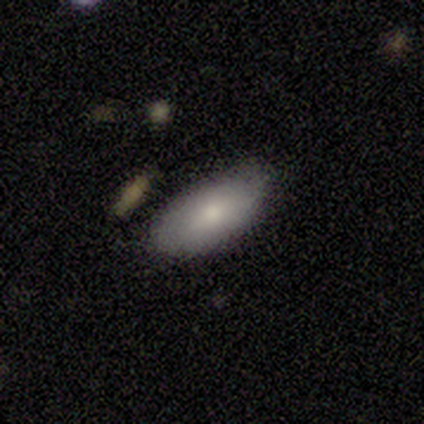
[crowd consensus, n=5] A smooth galaxy with no disk features (80%) that is in between round and cigar-shaped (100%).

Vote fractions:
- Smooth or featured? smooth: 80% / featured or disk: 20% / star or artifact: 0%
- How rounded? in between: 100% / round: 0% / cigar-shaped: 0%
- Merging? none: 80% / minor disturbance: 20% / major disturbance: 0% / merger: 0%